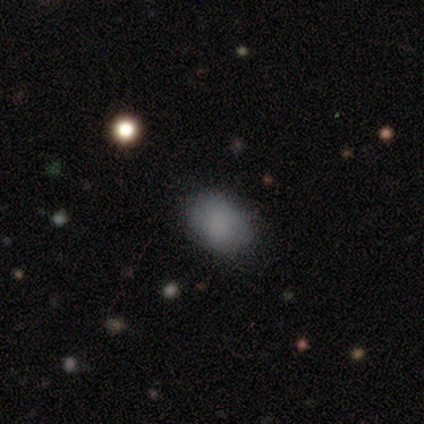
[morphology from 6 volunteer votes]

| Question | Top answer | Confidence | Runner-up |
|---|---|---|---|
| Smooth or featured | smooth | 100% | — |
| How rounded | in between | 67% | round (33%) |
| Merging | none | 83% | minor disturbance (17%) |